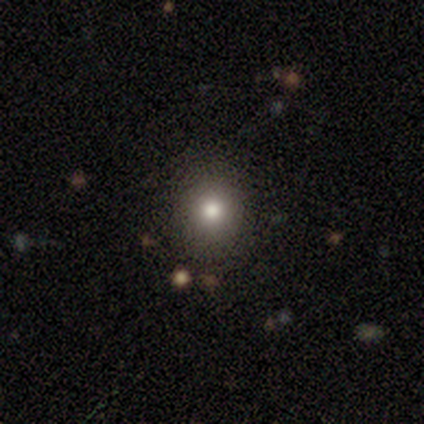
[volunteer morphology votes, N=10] smooth_or_featured: smooth (p=0.80) [alt: featured or disk p=0.10]
how_rounded: round (p=0.62) [alt: in between p=0.38]
merging: none (p=0.78) [alt: minor disturbance p=0.11]